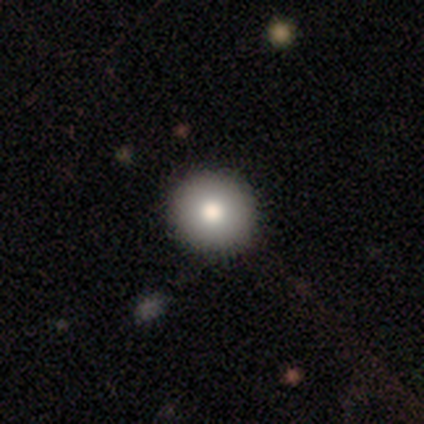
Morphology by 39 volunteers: smooth-or-featured: smooth: 79% | featured or disk: 10% | star or artifact: 10%
  how-rounded: round: 94% | in between: 6% | cigar-shaped: 0%
  merging: none: 89% | minor disturbance: 11% | major disturbance: 0% | merger: 0%